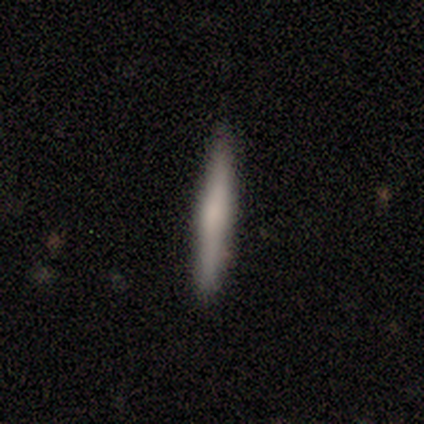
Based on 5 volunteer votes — Q: Smooth or featured?
A: smooth (100%)
Q: How rounded?
A: cigar-shaped (100%)
Q: Merging?
A: none (100%)